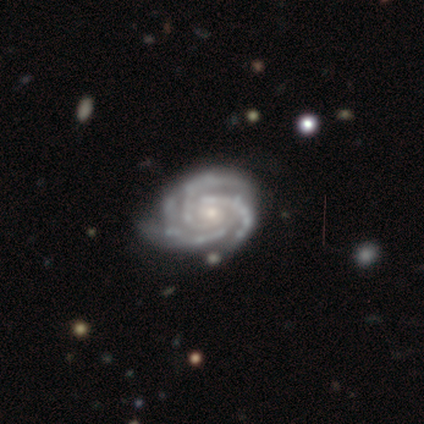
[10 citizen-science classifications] Morphology: type=featured or disk (100%); edge-on=no (100%); bar=no (60%); spiral arms=yes (100%); winding=tight (90%); arm count=3 (60%); bulge=small (90%); merging=none (80%).